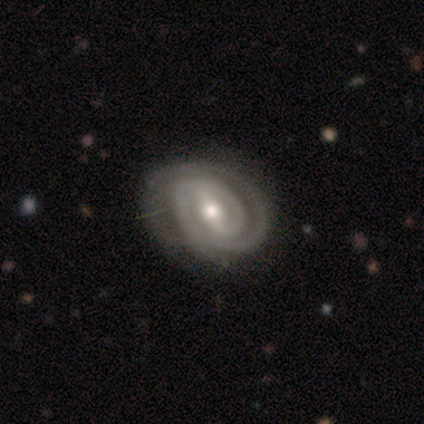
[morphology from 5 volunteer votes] Volunteers were most divided on "bulge size" (2-way tie): moderate: 40%, small: 40%, large: 20%, dominant: 0%, none: 0%. More confident: smooth or featured — featured or disk (100%); edge-on disk — no (100%); spiral arms — yes (100%); spiral winding — tight (100%); spiral arm count — 2 (100%); bar — strong (80%); merging — none (80%).